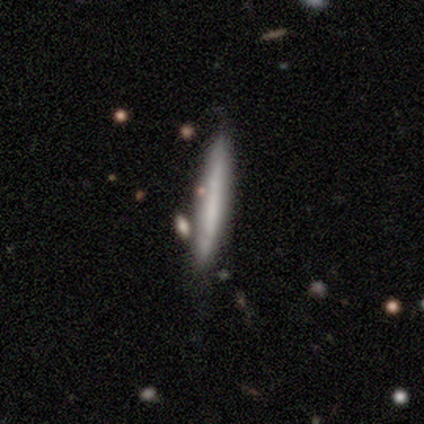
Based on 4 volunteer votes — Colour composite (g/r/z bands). It shows a smooth galaxy with no disk features (50%, tied with featured or disk) that is cigar-shaped (100%). Merging: none (75%).